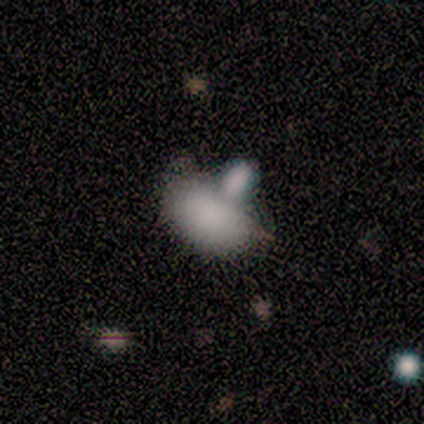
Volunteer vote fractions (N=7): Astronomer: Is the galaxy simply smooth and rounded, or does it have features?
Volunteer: smooth — 71%.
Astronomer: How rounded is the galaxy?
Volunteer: in between — 80%.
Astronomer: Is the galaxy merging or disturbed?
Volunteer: none — 50%, tied with merger at 50%.